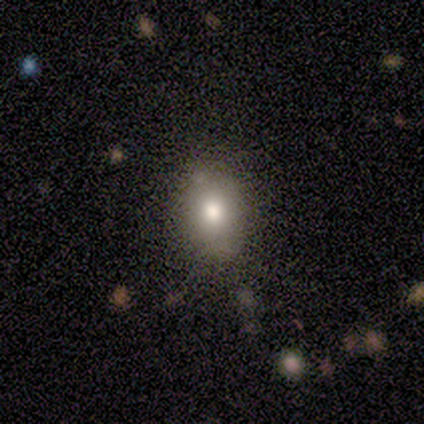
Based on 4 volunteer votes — This appears to be a smooth galaxy with no disk features (100%) that is in between round and cigar-shaped (100%). Merging: none (100%).